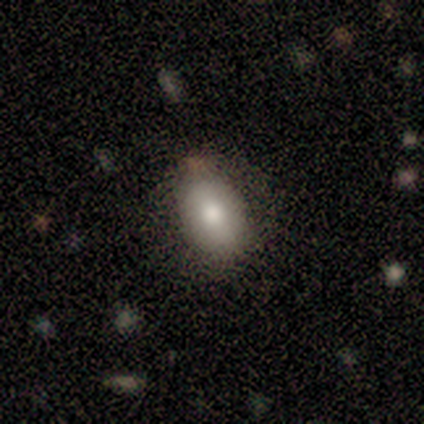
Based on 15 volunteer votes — Smooth or featured? smooth (73%)
How rounded? in between (55%)
Merging? none (79%)